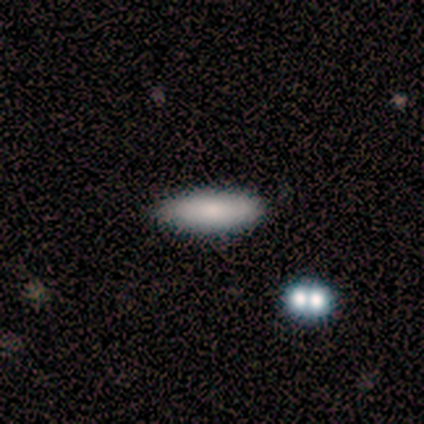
Smooth or featured?
  - smooth: 100% *
  - featured or disk: 0%
  - star or artifact: 0%
How rounded?
  - in between: 60% *
  - cigar-shaped: 40%
  - round: 0%
Merging?
  - none: 100% *
  - minor disturbance: 0%
  - major disturbance: 0%
  - merger: 0%